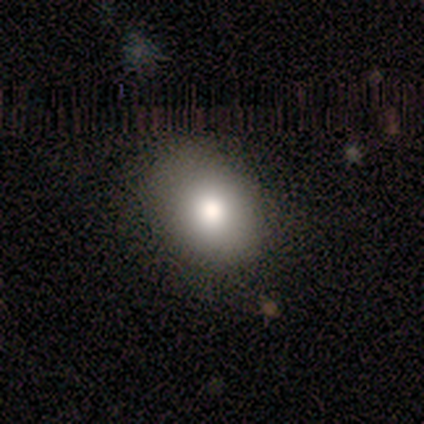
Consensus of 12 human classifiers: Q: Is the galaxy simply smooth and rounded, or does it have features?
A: smooth — 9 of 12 (75%).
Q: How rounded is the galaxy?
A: in between — 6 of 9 (67%).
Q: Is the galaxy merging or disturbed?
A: none — 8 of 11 (73%).